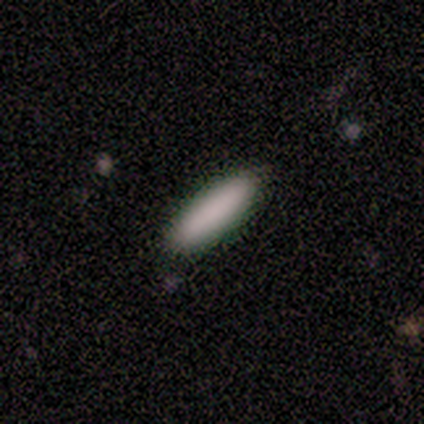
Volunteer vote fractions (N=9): smooth_or_featured: smooth (p=1.00)
how_rounded: cigar-shaped (p=0.78) [alt: round p=0.11]
merging: none (p=1.00)